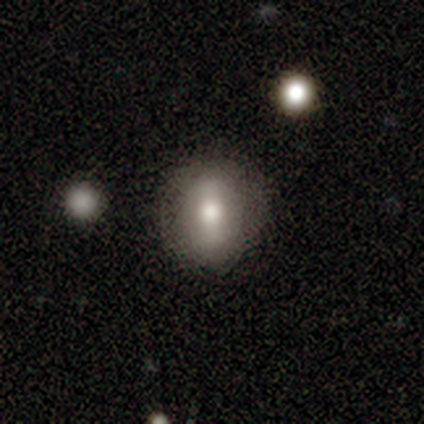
Morphology: type=smooth (80%); roundness=in between (75%); merging=none (80%).